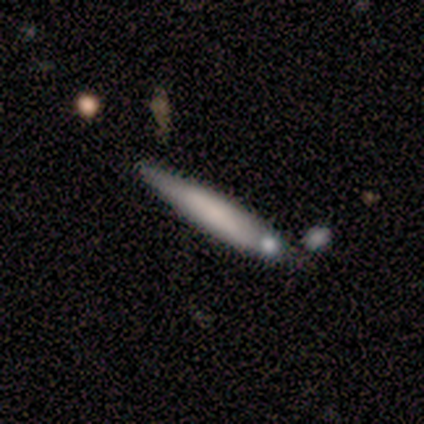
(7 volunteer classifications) This is possibly a featured or disk galaxy (57%). It is clearly viewed edge-on (100%). Edge-on bulge: likely none (75%). Merging: marginally none (33%, tied with minor disturbance and merger).